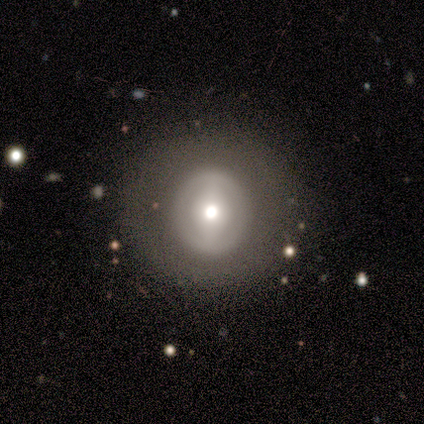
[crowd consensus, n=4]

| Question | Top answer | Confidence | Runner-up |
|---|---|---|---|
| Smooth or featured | smooth | 50% | featured or disk (25%) |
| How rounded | round | 100% | — |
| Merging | none | 100% | — |